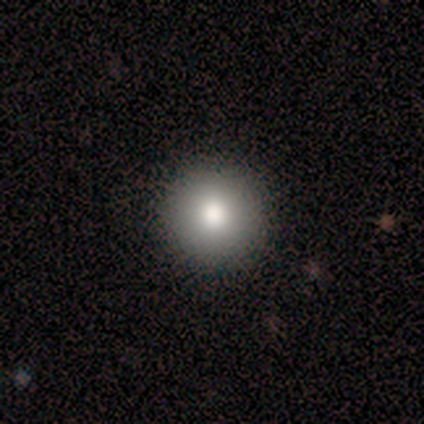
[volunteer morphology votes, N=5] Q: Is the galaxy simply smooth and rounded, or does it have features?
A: smooth — 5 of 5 (100%).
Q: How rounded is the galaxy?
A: round — 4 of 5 (80%).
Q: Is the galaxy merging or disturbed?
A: none — 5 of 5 (100%).